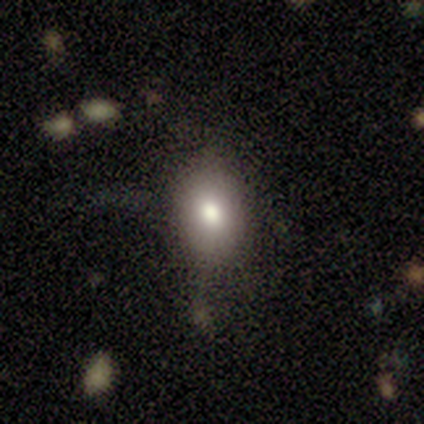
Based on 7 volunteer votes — A smooth galaxy with no disk features (57%) that is in between round and cigar-shaped (75%).

Vote fractions:
- Smooth or featured? smooth: 57% / star or artifact: 29% / featured or disk: 14%
- How rounded? in between: 75% / round: 25% / cigar-shaped: 0%
- Merging? none: 100% / minor disturbance: 0% / major disturbance: 0% / merger: 0%